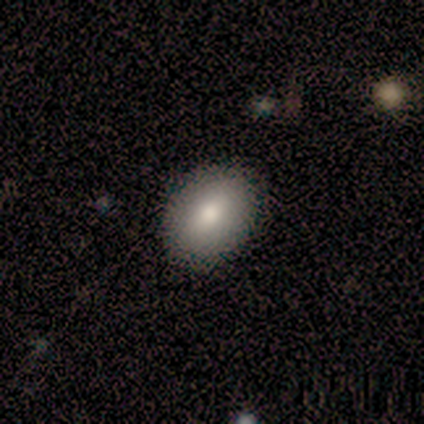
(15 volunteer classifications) smooth 93%, featured or disk 7%, star or artifact 0%. Down the decision tree: how rounded — in between (93%); merging — none (87%).